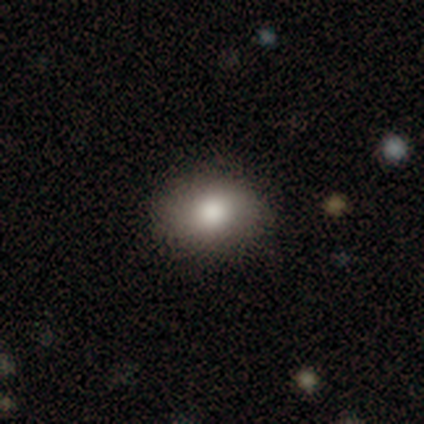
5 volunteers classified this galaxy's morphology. Smooth or featured: smooth — 80% (featured or disk — 20%)
How rounded: round — 75% (in between — 25%)
Merging: none — 100%